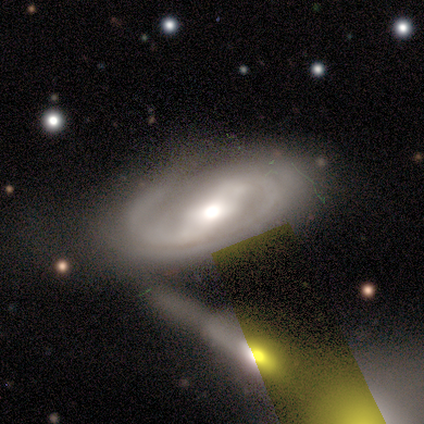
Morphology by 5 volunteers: Volunteers were most divided on "smooth or featured": featured or disk: 60%, smooth: 40%, star or artifact: 0%. More confident: edge-on disk — no (100%); spiral arms — yes (100%); bulge size — small (100%); bar — no (67%); spiral winding — medium (67%); spiral arm count — can't tell (67%); merging — minor disturbance (60%).